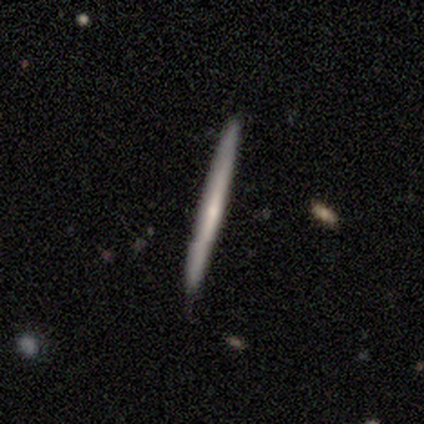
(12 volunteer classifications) Smooth or featured? 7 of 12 (58%) said smooth. How rounded? 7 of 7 (100%) said cigar-shaped. Merging? 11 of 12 (92%) said none.